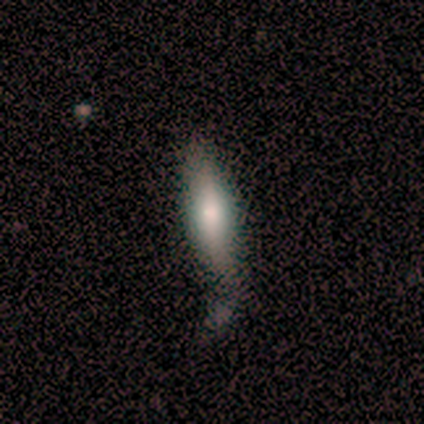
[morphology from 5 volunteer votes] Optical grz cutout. It shows a smooth galaxy with no disk features (80%) that is in between round and cigar-shaped (50%, tied with cigar-shaped). Merging: none (80%).